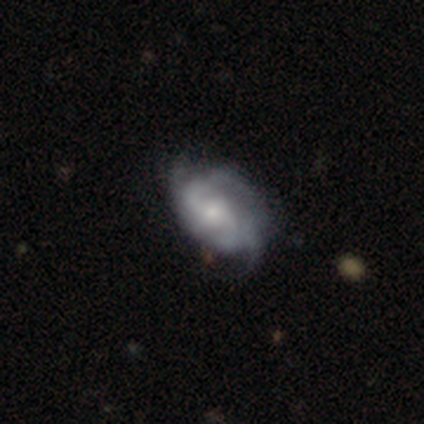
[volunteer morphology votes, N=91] Smooth or featured?
  - featured or disk: 82% *
  - smooth: 12%
  - star or artifact: 5%
Edge-on disk?
  - no: 97% *
  - yes: 3%
Bar?
  - no: 55% *
  - weak: 44%
  - strong: 1%
Spiral arms?
  - yes: 95% *
  - no: 5%
Spiral winding?
  - medium: 36% *
  - tight: 32%
  - loose: 32%
Spiral arm count?
  - 2: 46% *
  - can't tell: 26%
  - 3: 17%
  - 4: 6%
  - 1: 3%
  - more than 4: 1%
Bulge size?
  - small: 52% *
  - moderate: 38%
  - large: 5%
  - none: 4%
  - dominant: 0%
Merging?
  - none: 49% *
  - minor disturbance: 36%
  - major disturbance: 15%
  - merger: 0%